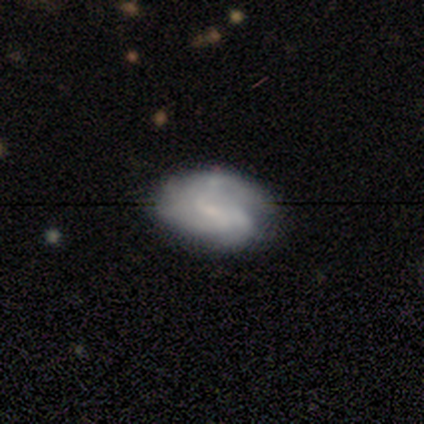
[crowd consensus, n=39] Overall: featured or disk (74%). Edge-on disk: no (100%). Bar: weak (55%; no 34%). Spiral arms: yes (93%). Spiral arm count: can't tell (44%; 2 26%). Spiral winding: medium (44%; tight 41%). Bulge size: small (59%; none 31%). Merging: none (70%).